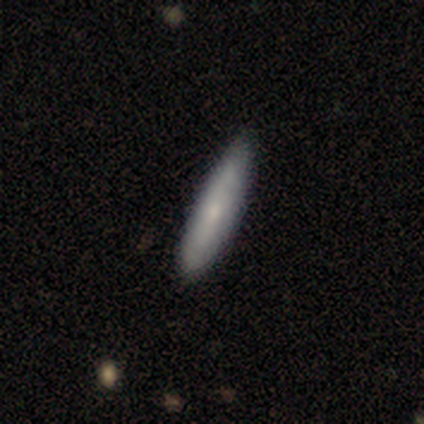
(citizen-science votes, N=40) This appears to be a smooth galaxy with no disk features (60%) that is cigar-shaped (92%). Merging: none (68%).